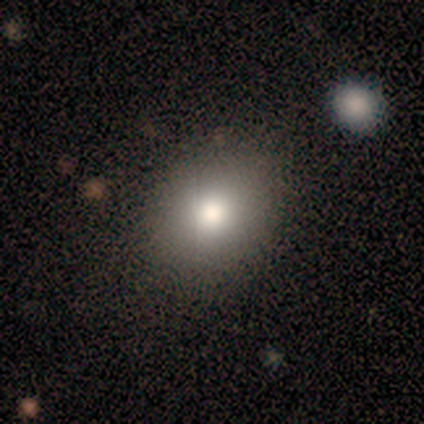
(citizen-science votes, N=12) Volunteers were most divided on "how rounded": round: 82%, in between: 18%, cigar-shaped: 0%. More confident: smooth or featured — smooth (92%); merging — none (91%).